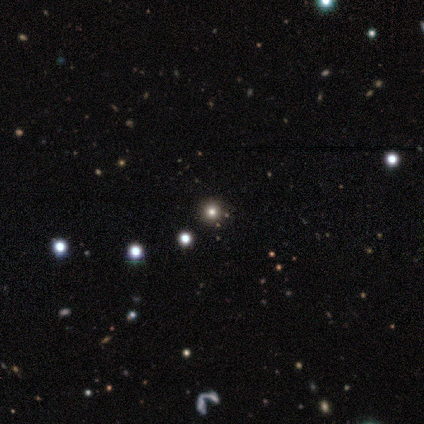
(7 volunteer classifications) Smooth or featured? 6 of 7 (86%) said star or artifact.